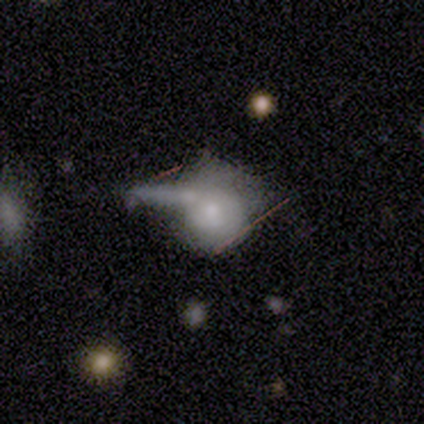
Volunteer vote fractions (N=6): Volunteers were most divided on "smooth or featured": smooth: 50%, featured or disk: 33%, star or artifact: 17%. More confident: how rounded — round (67%); merging — major disturbance (60%).